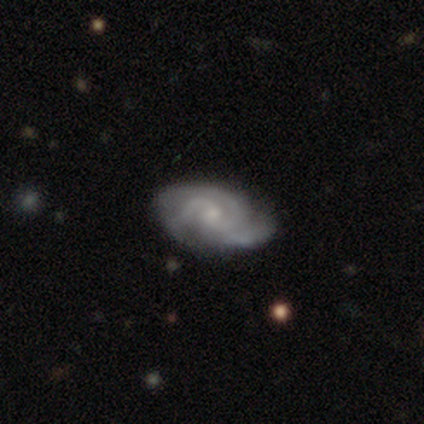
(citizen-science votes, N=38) Smooth or featured? 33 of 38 (87%) said featured or disk. Edge-on disk? 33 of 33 (100%) said no. Bar? 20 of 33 (61%) said no. Spiral arms? 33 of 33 (100%) said yes. Spiral winding? 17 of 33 (52%) said medium. Spiral arm count? 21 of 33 (64%) said 3. Bulge size? 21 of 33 (64%) said small. Merging? 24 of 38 (63%) said none.